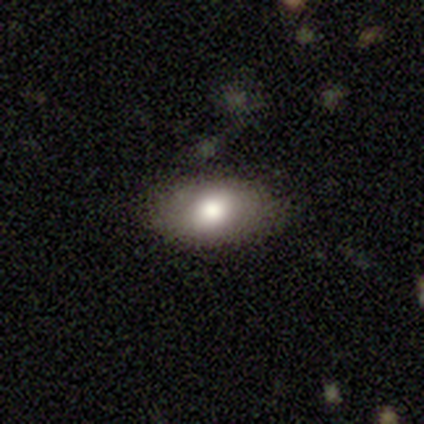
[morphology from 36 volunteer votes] smooth 67%, star or artifact 19%, featured or disk 14%. Down the decision tree: how rounded — in between (96%); merging — none (83%).